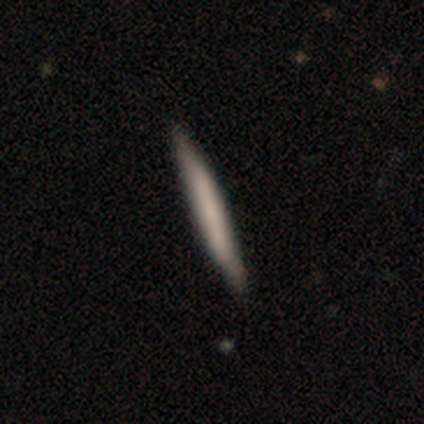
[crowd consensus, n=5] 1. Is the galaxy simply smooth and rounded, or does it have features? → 100% smooth, 0% featured or disk, 0% star or artifact.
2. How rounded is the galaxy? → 100% cigar-shaped, 0% round, 0% in between.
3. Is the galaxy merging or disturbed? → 100% none, 0% minor disturbance, 0% major disturbance, 0% merger.